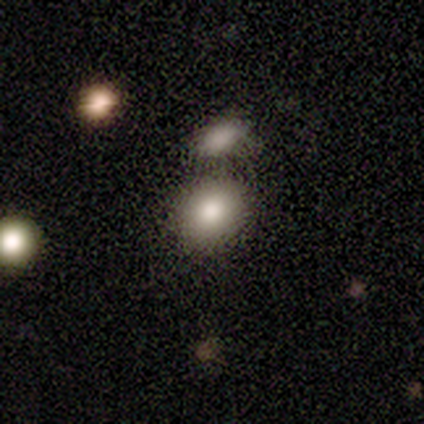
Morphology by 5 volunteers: smooth_or_featured: smooth (p=0.80) [alt: star or artifact p=0.20]
how_rounded: round (p=0.50) [tied with: in between p=0.50]
merging: none (p=1.00)